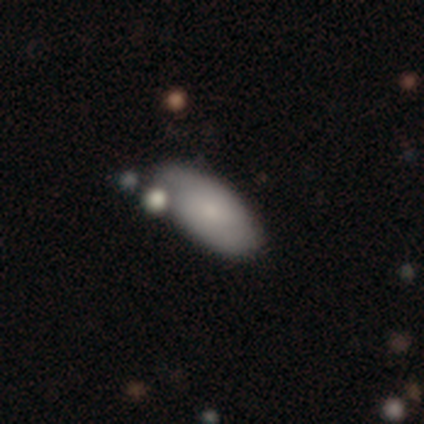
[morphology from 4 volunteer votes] Volunteers were most divided on "merging" (2-way tie): none: 50%, merger: 50%, minor disturbance: 0%, major disturbance: 0%. More confident: smooth or featured — smooth (75%); how rounded — in between (67%).